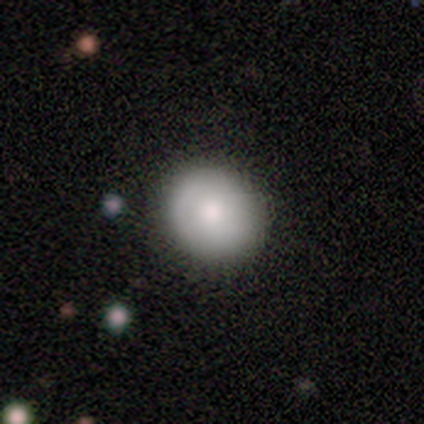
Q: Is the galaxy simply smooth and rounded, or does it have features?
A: smooth — 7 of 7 (100%).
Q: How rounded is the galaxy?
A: round — 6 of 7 (86%).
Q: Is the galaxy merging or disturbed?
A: none — 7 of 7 (100%).